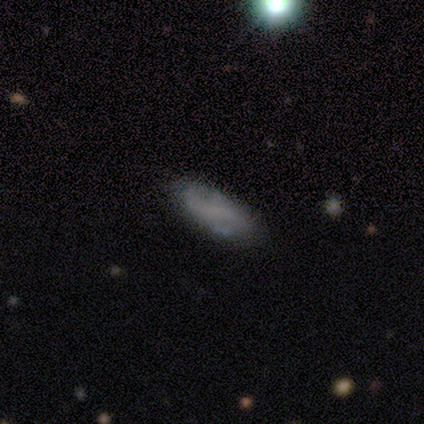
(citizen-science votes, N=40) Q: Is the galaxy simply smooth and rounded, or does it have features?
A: smooth — 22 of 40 (55%).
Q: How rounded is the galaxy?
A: in between — 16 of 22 (73%).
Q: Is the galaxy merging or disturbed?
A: none — 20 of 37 (54%).